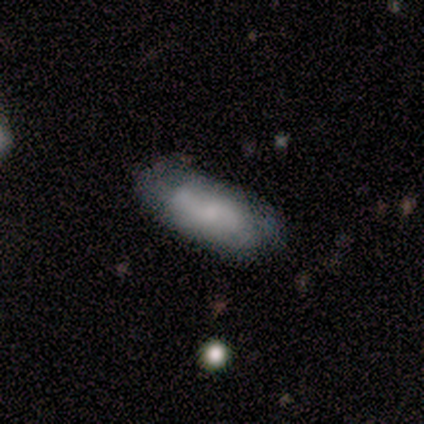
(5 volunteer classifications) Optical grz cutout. It shows a smooth galaxy with no disk features (40%, tied with featured or disk) that is in between round and cigar-shaped (100%). Merging: minor disturbance (50%).